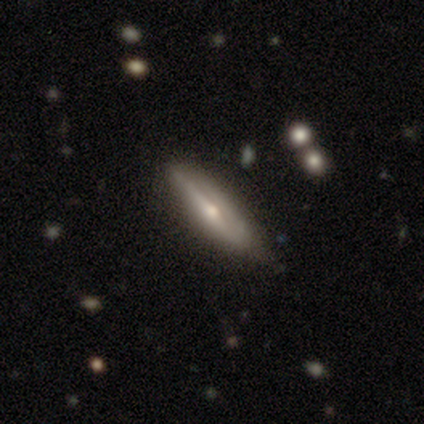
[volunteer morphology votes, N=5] Q: Smooth or featured?
A: featured or disk (80%); runner-up: smooth (20%)
Q: Edge-on disk?
A: yes (75%); runner-up: no (25%)
Q: Edge-on bulge?
A: rounded (67%); runner-up: boxy (33%)
Q: Merging?
A: none (60%); runner-up: minor disturbance (40%)